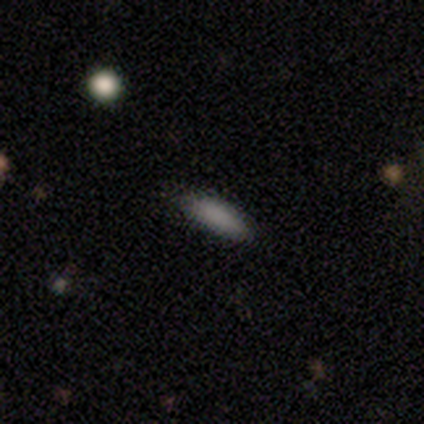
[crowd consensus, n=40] A smooth galaxy with no disk features (92%) that is cigar-shaped (51%). Merging: none (84%).